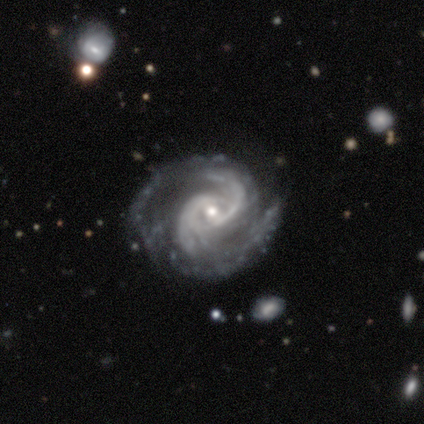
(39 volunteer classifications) This appears to be a featured or disk galaxy (95%) with no bar (59%), 2 (72%) medium (47%) spiral arms (97%) and a small central bulge (70%). Merging: none (79%).